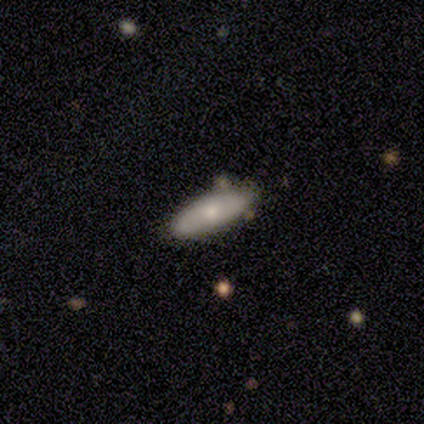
This appears to be a smooth galaxy with no disk features (50%) that is in between round and cigar-shaped (50%, tied with cigar-shaped). Merging: none (100%).